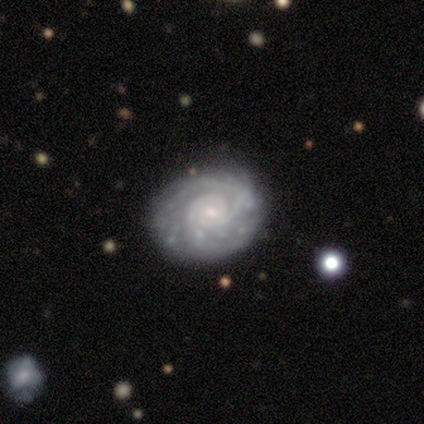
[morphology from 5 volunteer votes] A featured or disk galaxy (100%) with no bar (100%), tight (80%) spiral arms (100%) and a small central bulge (60%).

Vote fractions:
- Smooth or featured? featured or disk: 100% / smooth: 0% / star or artifact: 0%
- Edge-on disk? no: 100% / yes: 0%
- Bar? no: 100% / strong: 0% / weak: 0%
- Spiral arms? yes: 100% / no: 0%
- Spiral winding? tight: 80% / medium: 20% / loose: 0%
- Spiral arm count? can't tell: 40% / 2: 20% / 3: 20% / more than 4: 20% / 1: 0% / 4: 0%
- Bulge size? small: 60% / moderate: 40% / dominant: 0% / large: 0% / none: 0%
- Merging? none: 80% / minor disturbance: 20% / major disturbance: 0% / merger: 0%